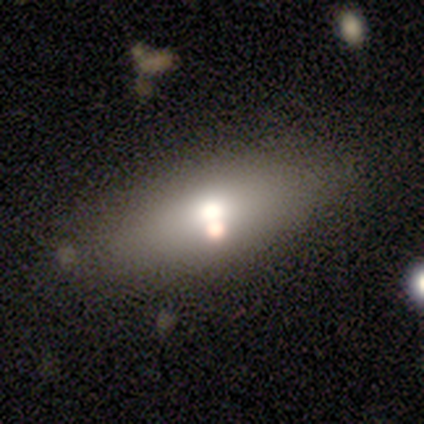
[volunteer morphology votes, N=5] This appears to be a smooth galaxy with no disk features (60%) that is in between round and cigar-shaped (67%). Merging: none (80%).